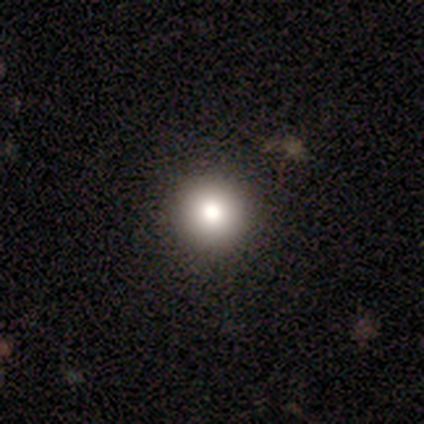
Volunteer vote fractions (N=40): Smooth or featured?
  - smooth: 80% *
  - featured or disk: 10%
  - star or artifact: 10%
How rounded?
  - round: 97% *
  - in between: 3%
  - cigar-shaped: 0%
Merging?
  - none: 94% *
  - minor disturbance: 6%
  - major disturbance: 0%
  - merger: 0%